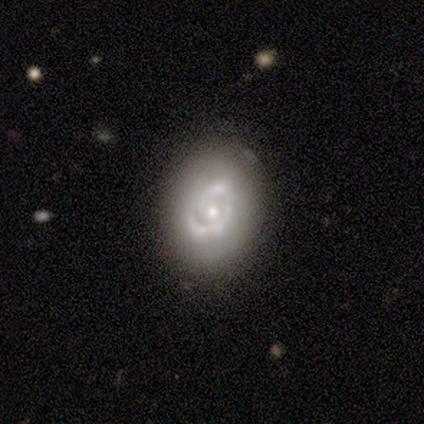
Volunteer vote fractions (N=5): Smooth or featured? 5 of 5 (100%) said featured or disk. Edge-on disk? 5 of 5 (100%) said no. Bar? 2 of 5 (40%, tied with no) said weak. Spiral arms? 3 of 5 (60%) said yes. Spiral winding? 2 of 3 (67%) said tight. Spiral arm count? 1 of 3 (33%, tied with 3 and can't tell) said 2. Bulge size? 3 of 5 (60%) said moderate. Merging? 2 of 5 (40%, tied with minor disturbance) said none.